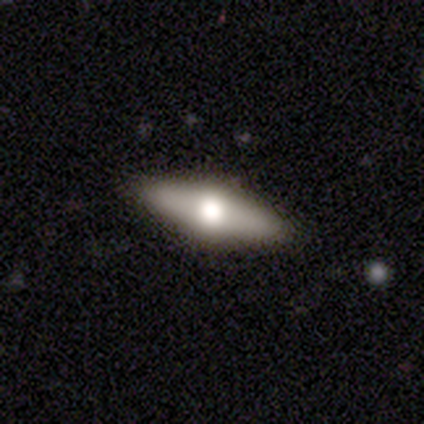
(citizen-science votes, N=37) Volunteers were most divided on "smooth or featured": featured or disk: 73%, smooth: 24%, star or artifact: 3%. More confident: edge-on bulge — rounded (100%); merging — none (97%); edge-on disk — yes (85%).